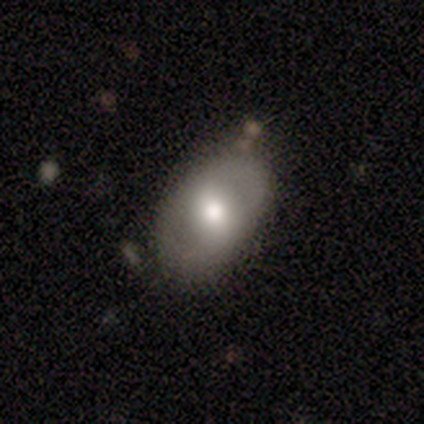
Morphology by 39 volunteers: This is likely a smooth galaxy (62%). How rounded: clearly in between (96%). Merging: clearly none (81%).